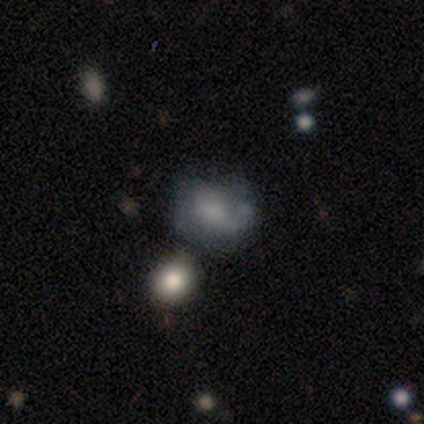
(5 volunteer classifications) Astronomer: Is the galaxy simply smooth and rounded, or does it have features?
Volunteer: smooth — 80%.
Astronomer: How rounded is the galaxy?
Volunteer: in between — 75%.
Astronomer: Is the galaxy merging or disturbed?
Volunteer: minor disturbance — 50%.